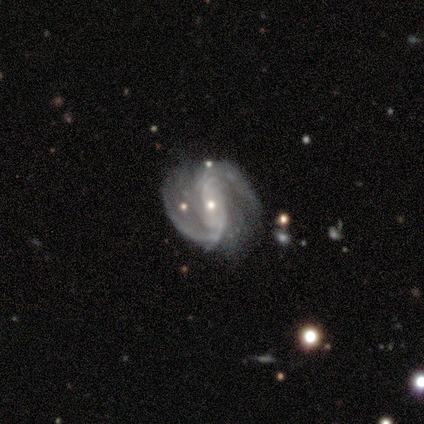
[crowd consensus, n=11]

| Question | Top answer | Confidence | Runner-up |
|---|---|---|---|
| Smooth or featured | featured or disk | 100% | — |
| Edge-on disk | no | 100% | — |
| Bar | strong | 36% | tied: weak (36%) |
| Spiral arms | yes | 100% | — |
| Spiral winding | tight | 36% | tied: medium (36%) |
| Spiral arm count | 2 | 91% | more than 4 (9%) |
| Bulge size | small | 64% | moderate (36%) |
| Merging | none | 82% | minor disturbance (18%) |